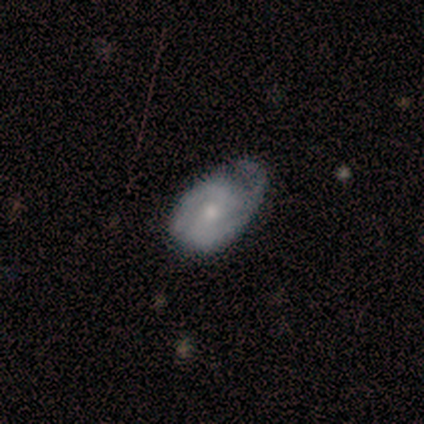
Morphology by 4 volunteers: Overall: featured or disk (100%). Edge-on disk: no (100%). Bar: no (75%). Spiral arms: yes (75%). Spiral arm count: 2 (67%; 3 33%). Spiral winding: tight (67%; medium 33%). Bulge size: moderate (75%). Merging: none (75%).